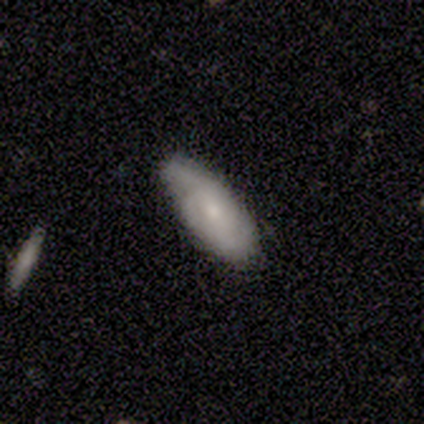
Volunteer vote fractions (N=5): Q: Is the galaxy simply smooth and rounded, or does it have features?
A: smooth — 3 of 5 (60%).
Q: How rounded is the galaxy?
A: in between — 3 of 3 (100%).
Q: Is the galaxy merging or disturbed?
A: none — 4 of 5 (80%).